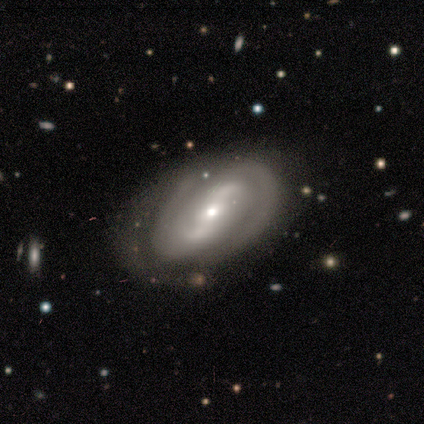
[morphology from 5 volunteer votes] smooth-or-featured: featured or disk: 80% | star or artifact: 20% | smooth: 0%
  disk-edge-on: no: 100% | yes: 0%
    bar: weak: 75% | no: 25% | strong: 0%
    has-spiral-arms: yes: 100% | no: 0%
      spiral-winding: medium: 50% | tight: 25% | loose: 25%
      spiral-arm-count: 2: 75% | can't tell: 25% | 1: 0% | 3: 0% | 4: 0% | more than 4: 0%
    bulge-size: small: 75% | moderate: 25% | dominant: 0% | large: 0% | none: 0%
  merging: none: 75% | minor disturbance: 25% | major disturbance: 0% | merger: 0%